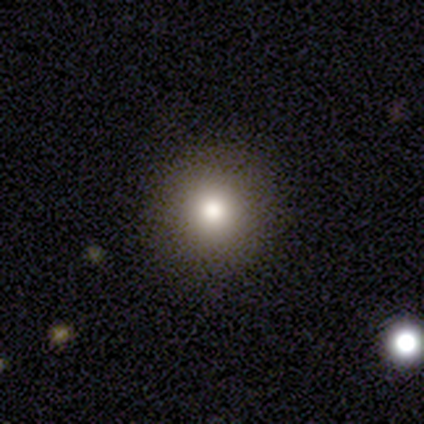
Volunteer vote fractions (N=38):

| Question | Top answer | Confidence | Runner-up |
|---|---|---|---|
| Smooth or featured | smooth | 79% | featured or disk (11%) |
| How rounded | round | 93% | in between (7%) |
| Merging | none | 94% | minor disturbance (3%) |